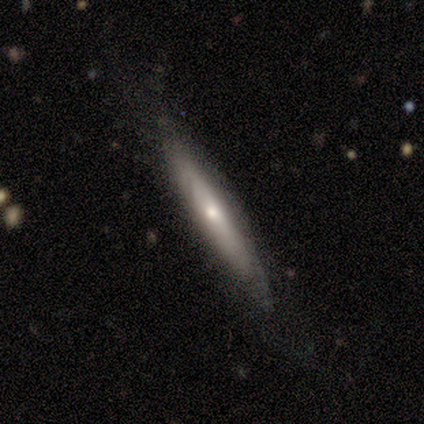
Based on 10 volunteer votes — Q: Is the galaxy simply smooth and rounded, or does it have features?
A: featured or disk — 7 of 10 (70%).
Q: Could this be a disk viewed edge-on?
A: yes — 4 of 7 (57%).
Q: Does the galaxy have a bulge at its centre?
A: rounded — 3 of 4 (75%).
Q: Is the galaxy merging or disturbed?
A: none — 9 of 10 (90%).